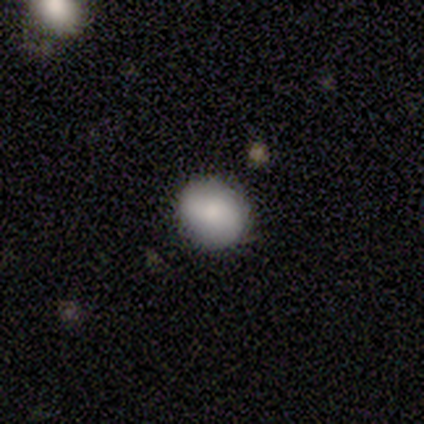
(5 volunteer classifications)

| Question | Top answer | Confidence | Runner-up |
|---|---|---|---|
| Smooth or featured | smooth | 100% | — |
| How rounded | round | 100% | — |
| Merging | none | 100% | — |